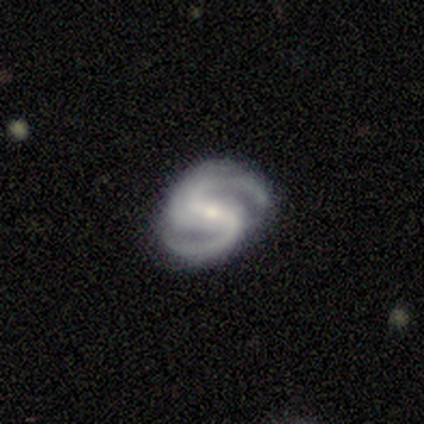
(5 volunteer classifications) Smooth or featured? featured or disk (100%)
Edge-on disk? no (100%)
Bar? weak (80%)
Spiral arms? yes (100%)
Spiral winding? medium (80%)
Spiral arm count? 2 (100%)
Bulge size? small (80%)
Merging? minor disturbance (60%)